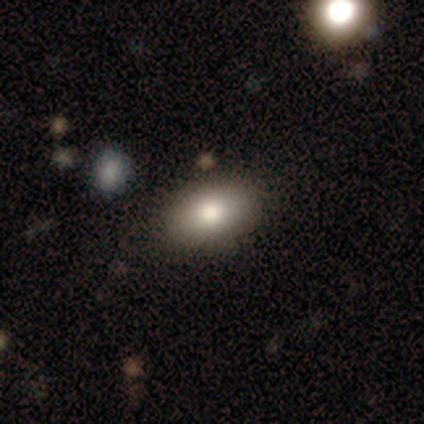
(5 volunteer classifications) A smooth galaxy with no disk features (80%) that is in between round and cigar-shaped (75%). Merging: none (80%).